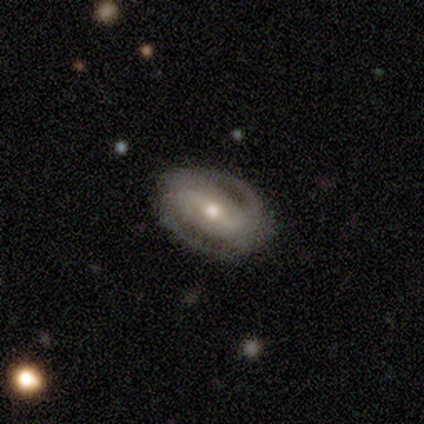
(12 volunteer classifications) smooth-or-featured: featured or disk: 83% | smooth: 8% | star or artifact: 8%
  disk-edge-on: no: 100% | yes: 0%
    bar: strong: 70% | no: 20% | weak: 10%
    has-spiral-arms: yes: 90% | no: 10%
      spiral-winding: tight: 56% | medium: 33% | loose: 11%
      spiral-arm-count: 2: 89% | can't tell: 11% | 1: 0% | 3: 0% | 4: 0% | more than 4: 0%
    bulge-size: moderate: 60% | small: 40% | dominant: 0% | large: 0% | none: 0%
  merging: none: 73% | minor disturbance: 27% | major disturbance: 0% | merger: 0%